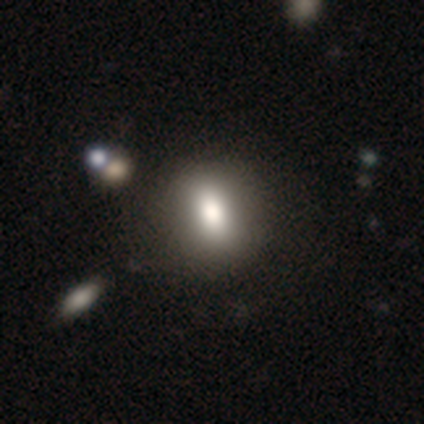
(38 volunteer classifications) Morphology: type=smooth (71%); roundness=in between (59%); merging=none (69%).